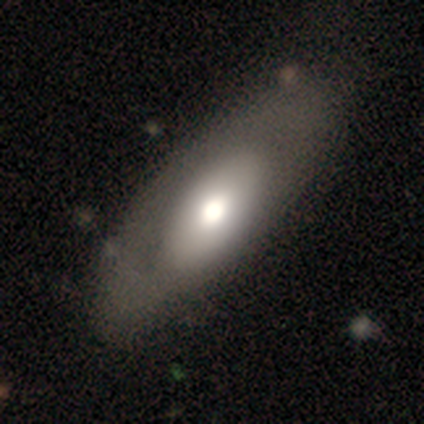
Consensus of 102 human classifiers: Smooth or featured? 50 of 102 (49%) said featured or disk. Edge-on disk? 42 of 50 (84%) said no. Bar? 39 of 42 (93%) said no. Spiral arms? 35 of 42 (83%) said no. Bulge size? 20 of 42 (48%) said large. Merging? 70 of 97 (72%) said none.